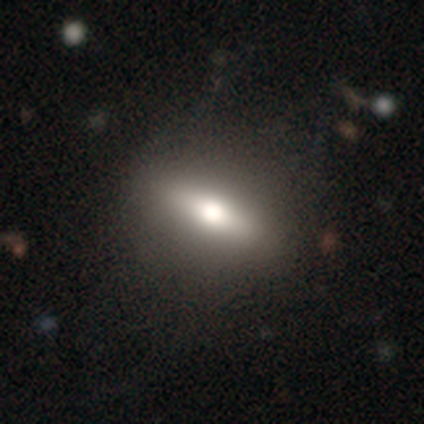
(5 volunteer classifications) Smooth or featured: featured or disk — 60% (smooth — 40%)
Edge-on disk: yes — 67% (no — 33%)
Edge-on bulge: rounded — 100%
Merging: none — 80% (minor disturbance — 20%)